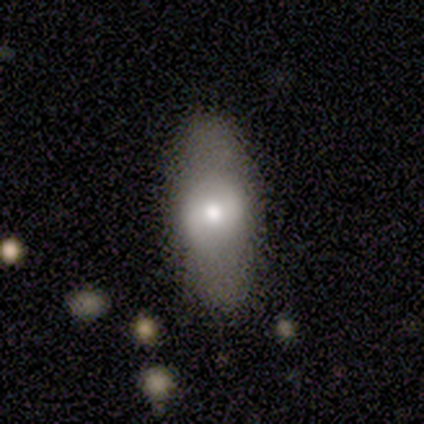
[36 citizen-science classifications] A smooth galaxy with no disk features (50%) that is in between round and cigar-shaped (83%). Merging: none (79%).